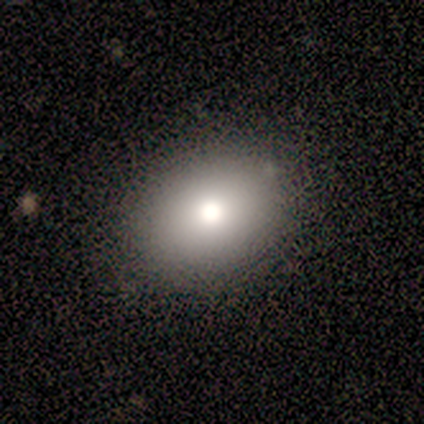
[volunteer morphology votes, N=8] Smooth or featured? smooth (75%)
How rounded? in between (67%)
Merging? none (71%)